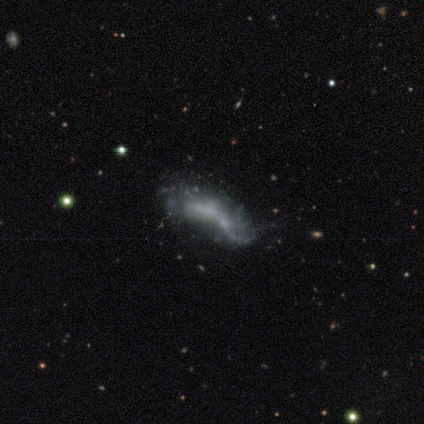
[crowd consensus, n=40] Smooth or featured? 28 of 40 (70%) said featured or disk. Edge-on disk? 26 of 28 (93%) said no. Bar? 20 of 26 (77%) said no. Spiral arms? 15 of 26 (58%) said no. Bulge size? 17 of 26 (65%) said none. Merging? 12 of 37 (32%) said merger.